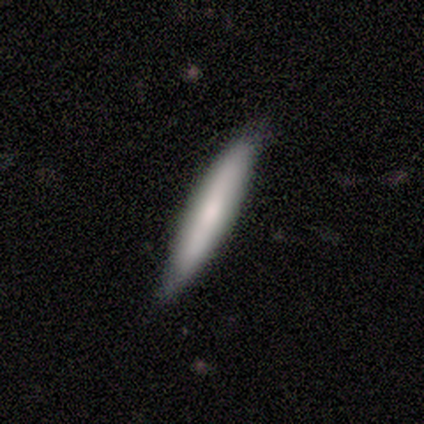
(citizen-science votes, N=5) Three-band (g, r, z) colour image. It shows a smooth galaxy with no disk features (100%) that is cigar-shaped (80%). Merging: minor disturbance (60%).